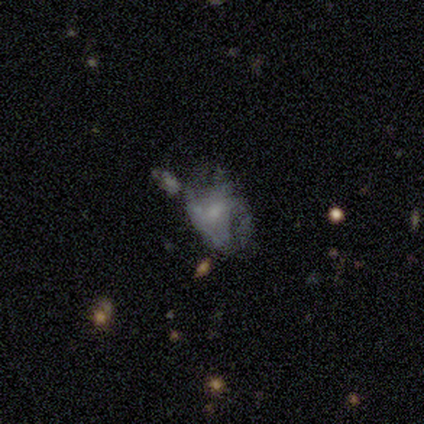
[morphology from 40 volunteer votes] Smooth or featured? 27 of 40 (68%) said featured or disk. Edge-on disk? 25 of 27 (93%) said no. Bar? 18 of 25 (72%) said no. Spiral arms? 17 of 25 (68%) said no. Bulge size? 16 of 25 (64%) said small. Merging? 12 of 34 (35%) said minor disturbance.